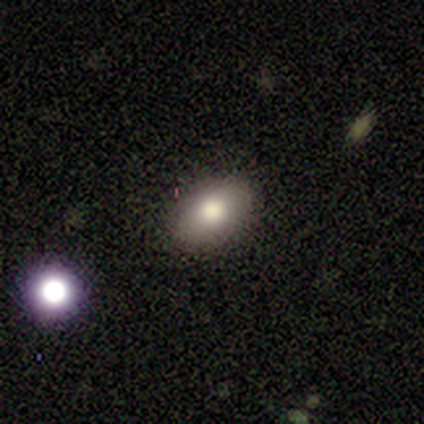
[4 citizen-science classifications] smooth-or-featured: smooth: 100% | featured or disk: 0% | star or artifact: 0%
  how-rounded: in between: 100% | round: 0% | cigar-shaped: 0%
  merging: none: 100% | minor disturbance: 0% | major disturbance: 0% | merger: 0%